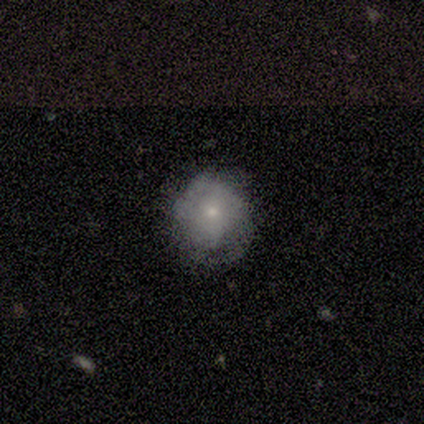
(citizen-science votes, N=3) featured or disk 67%, smooth 33%, star or artifact 0%. Down the decision tree: edge-on disk — no (100%); bar — no (100%); spiral arms — no (100%); bulge size — large (50%, tied with small); merging — none (33%, tied with minor disturbance and major disturbance).